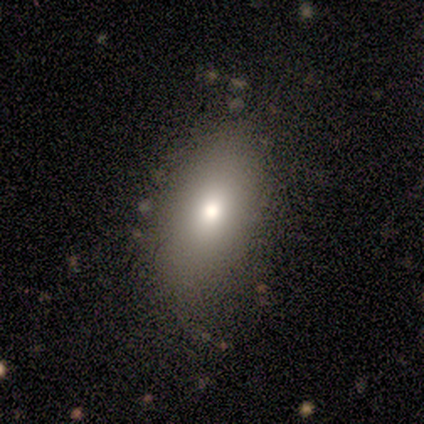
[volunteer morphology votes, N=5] Smooth or featured: smooth — 80% (featured or disk — 20%)
How rounded: in between — 100%
Merging: none — 100%